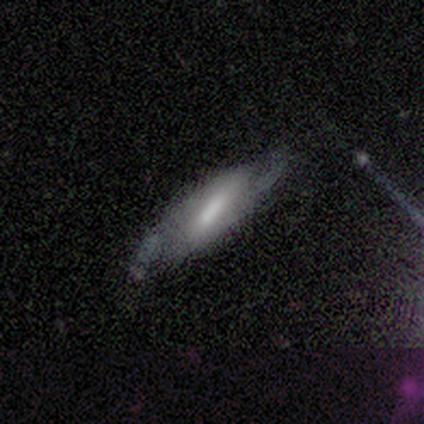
A featured or disk galaxy (54%) with a weak bar (39%), 2 (71%) loose (64%) spiral arms (78%) and a moderate central bulge (39%). Merging: none (69%).